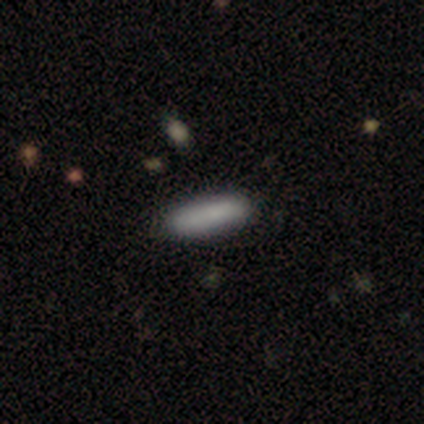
A smooth galaxy with no disk features (100%) that is cigar-shaped (67%). Merging: none (67%).